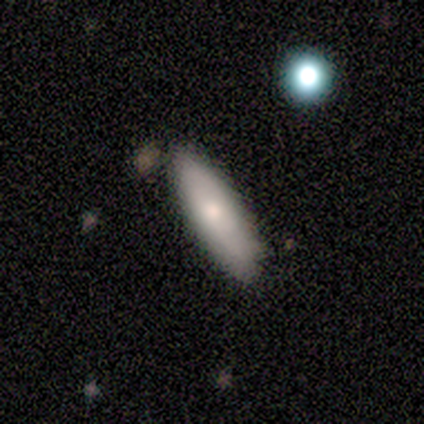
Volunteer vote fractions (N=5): This appears to be a smooth galaxy with no disk features (80%) that is in between round and cigar-shaped (50%, tied with cigar-shaped). Merging: none (60%).